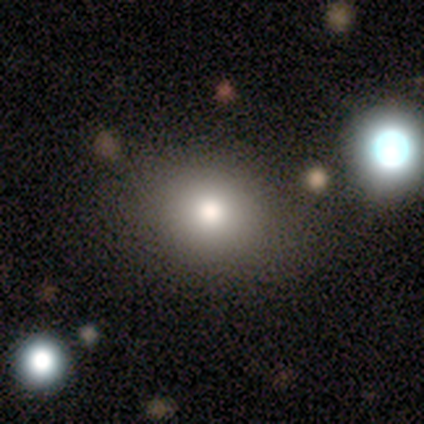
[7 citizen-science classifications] This appears to be a smooth galaxy with no disk features (86%) that is round (67%). Merging: none (57%).